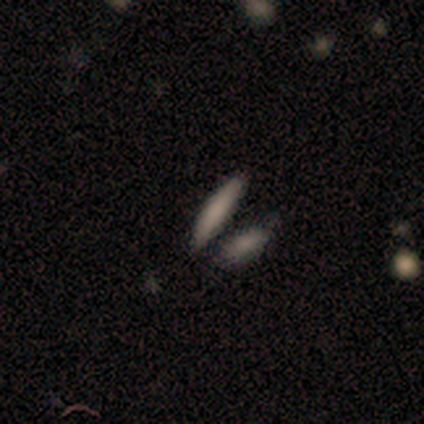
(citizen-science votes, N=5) smooth_or_featured: smooth (p=1.00)
how_rounded: cigar-shaped (p=0.80) [alt: in between p=0.20]
merging: none (p=0.60) [alt: merger p=0.40]